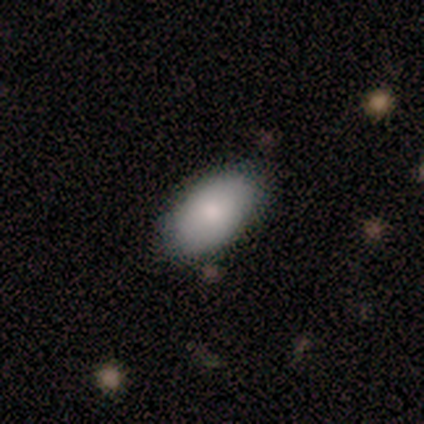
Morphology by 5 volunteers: type=smooth (80%); roundness=in between (100%); merging=none (80%).